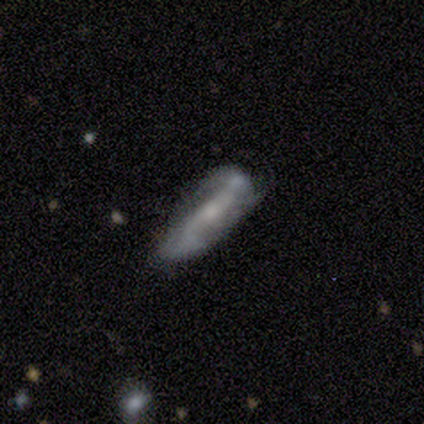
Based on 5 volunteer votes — Smooth or featured? featured or disk (60%)
Edge-on disk? no (100%)
Bar? strong (33%, tied with weak and no)
Spiral arms? yes (67%)
Spiral winding? tight (50%, tied with loose)
Spiral arm count? 2 (100%)
Bulge size? moderate (100%)
Merging? none (60%)